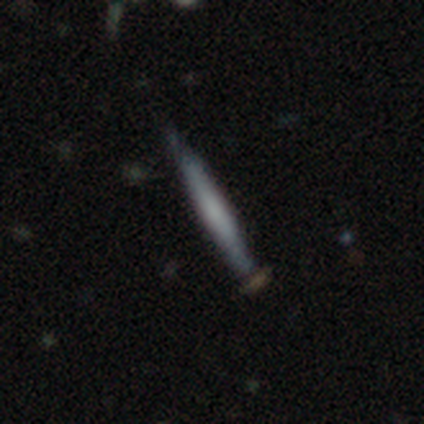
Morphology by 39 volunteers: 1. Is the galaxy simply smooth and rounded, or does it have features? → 59% smooth, 31% featured or disk, 10% star or artifact.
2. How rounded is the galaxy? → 100% cigar-shaped, 0% round, 0% in between.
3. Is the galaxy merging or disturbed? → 77% none, 17% minor disturbance, 6% merger, 0% major disturbance.